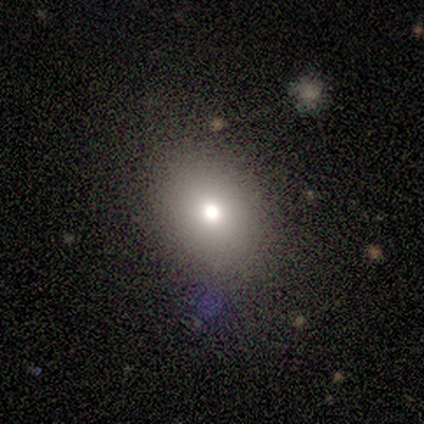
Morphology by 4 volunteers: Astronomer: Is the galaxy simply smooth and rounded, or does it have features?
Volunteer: smooth — 50%, tied with star or artifact at 50%.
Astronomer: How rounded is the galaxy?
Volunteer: round — 100%.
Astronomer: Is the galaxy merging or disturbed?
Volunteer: none — 100%.